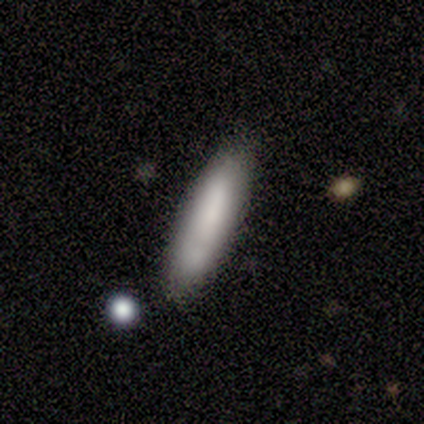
smooth-or-featured: smooth: 100% | featured or disk: 0% | star or artifact: 0%
  how-rounded: cigar-shaped: 100% | round: 0% | in between: 0%
  merging: none: 60% | minor disturbance: 20% | major disturbance: 20% | merger: 0%